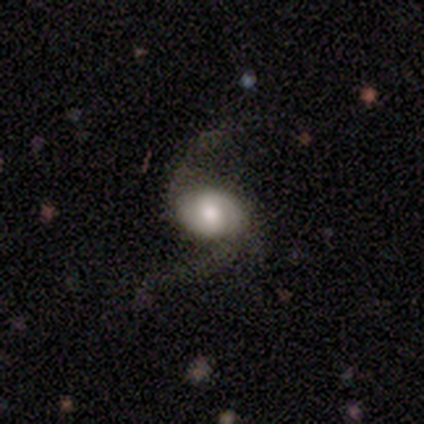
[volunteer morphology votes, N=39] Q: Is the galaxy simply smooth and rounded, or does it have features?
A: featured or disk — 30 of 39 (77%).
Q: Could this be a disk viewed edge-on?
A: no — 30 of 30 (100%).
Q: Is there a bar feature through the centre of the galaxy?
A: no — 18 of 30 (60%).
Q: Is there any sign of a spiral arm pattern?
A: yes — 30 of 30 (100%).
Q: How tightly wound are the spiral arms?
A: loose — 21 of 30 (70%).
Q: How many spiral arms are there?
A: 2 — 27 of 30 (90%).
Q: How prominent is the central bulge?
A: large — 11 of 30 (37%, tied with moderate).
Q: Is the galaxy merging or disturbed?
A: none — 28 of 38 (74%).